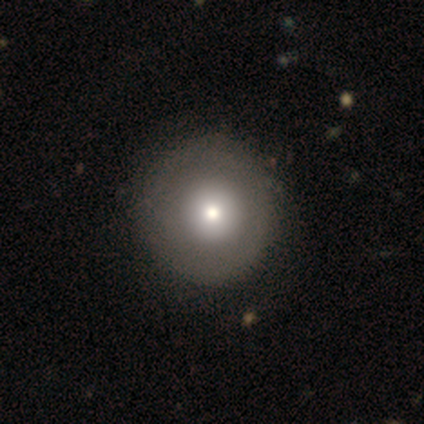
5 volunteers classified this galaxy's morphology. A smooth galaxy with no disk features (60%) that is round (100%). Merging: none (100%).